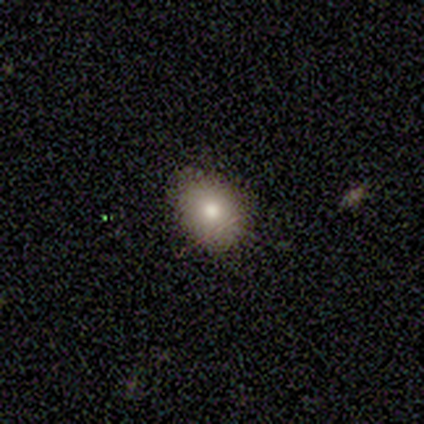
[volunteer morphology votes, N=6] Q: Smooth or featured?
A: smooth (50%); runner-up: featured or disk (33%)
Q: How rounded?
A: round (100%)
Q: Merging?
A: none (100%)